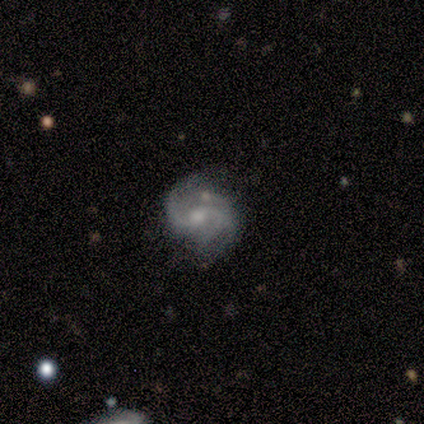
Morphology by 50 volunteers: A featured or disk galaxy (88%) with no bar (50%), 2 (72%) medium (53%) spiral arms (98%) and a moderate central bulge (64%). Merging: none (54%).